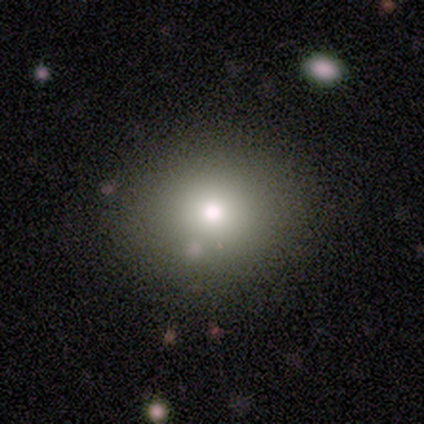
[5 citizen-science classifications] Smooth or featured: smooth — 80% (star or artifact — 20%)
How rounded: in between — 75% (round — 25%)
Merging: none — 100%